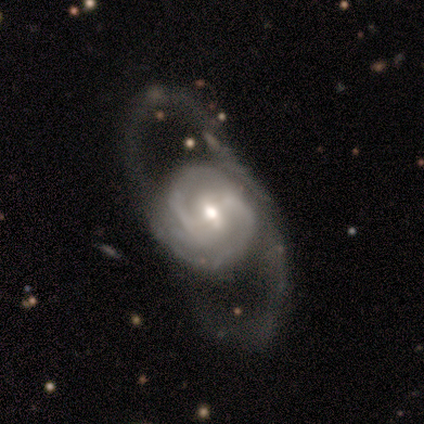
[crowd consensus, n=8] smooth_or_featured: featured or disk (p=1.00)
disk_edge_on: no (p=1.00)
bar: weak (p=0.62) [alt: strong p=0.25]
has_spiral_arms: yes (p=1.00)
spiral_winding: tight (p=0.62) [alt: medium p=0.25]
spiral_arm_count: 2 (p=0.38) [alt: 3 p=0.25]
bulge_size: moderate (p=0.50) [alt: large p=0.38]
merging: major disturbance (p=0.75) [alt: none p=0.25]